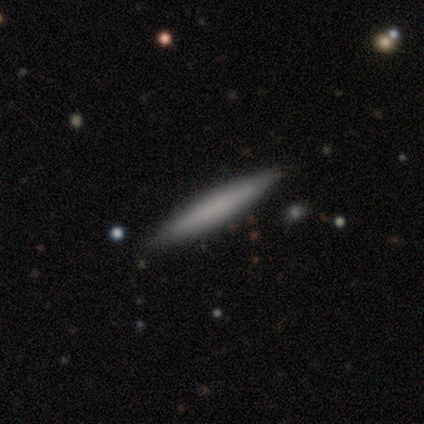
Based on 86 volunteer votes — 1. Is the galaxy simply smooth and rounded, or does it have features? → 73% smooth, 24% featured or disk, 2% star or artifact.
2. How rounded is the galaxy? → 97% cigar-shaped, 2% round, 2% in between.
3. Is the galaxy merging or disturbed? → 92% none, 5% minor disturbance, 2% major disturbance, 1% merger.